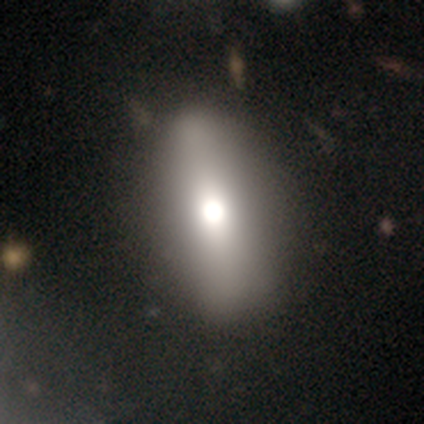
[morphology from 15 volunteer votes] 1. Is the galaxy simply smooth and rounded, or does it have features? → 67% smooth, 20% featured or disk, 13% star or artifact.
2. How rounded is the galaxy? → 90% in between, 10% round, 0% cigar-shaped.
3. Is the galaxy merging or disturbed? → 100% none, 0% minor disturbance, 0% major disturbance, 0% merger.